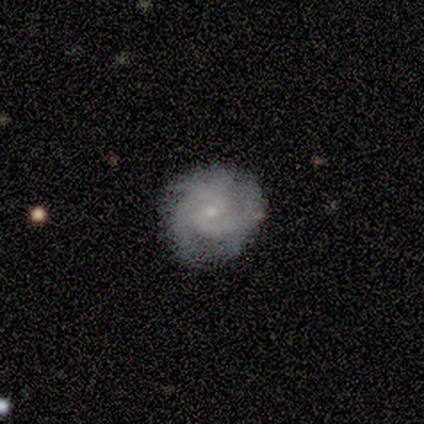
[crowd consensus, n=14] Smooth or featured: featured or disk — 100%
Edge-on disk: no — 100%
Bar: no — 57% (weak — 36%)
Spiral arms: yes — 100%
Spiral winding: tight — 64% (medium — 36%)
Spiral arm count: 2 — 57% (3 — 36%)
Bulge size: small — 93% (moderate — 7%)
Merging: none — 50% (tied with minor disturbance — 50%)